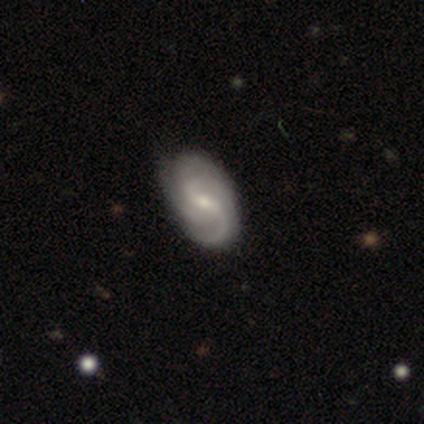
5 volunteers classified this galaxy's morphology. A featured or disk galaxy (100%) with a weak bar (100%), 2 (80%) medium (100%) spiral arms (100%) and a small central bulge (60%).

Vote fractions:
- Smooth or featured? featured or disk: 100% / smooth: 0% / star or artifact: 0%
- Edge-on disk? no: 100% / yes: 0%
- Bar? weak: 100% / strong: 0% / no: 0%
- Spiral arms? yes: 100% / no: 0%
- Spiral winding? medium: 100% / tight: 0% / loose: 0%
- Spiral arm count? 2: 80% / 3: 20% / 1: 0% / 4: 0% / more than 4: 0% / can't tell: 0%
- Bulge size? small: 60% / moderate: 40% / dominant: 0% / large: 0% / none: 0%
- Merging? none: 100% / minor disturbance: 0% / major disturbance: 0% / merger: 0%